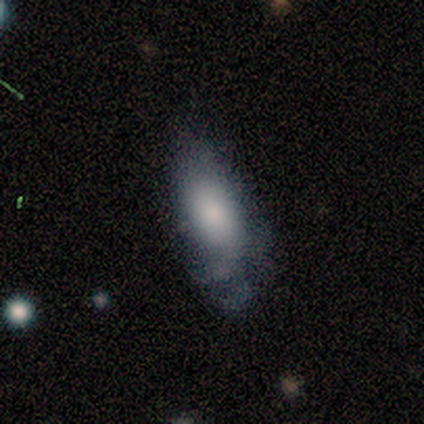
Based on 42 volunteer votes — Q: Smooth or featured?
A: smooth (60%); runner-up: featured or disk (29%)
Q: How rounded?
A: in between (76%); runner-up: cigar-shaped (20%)
Q: Merging?
A: minor disturbance (51%); runner-up: none (41%)